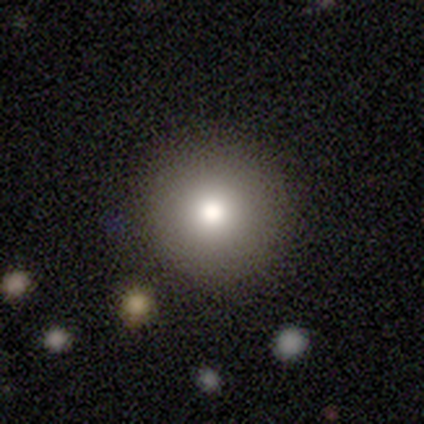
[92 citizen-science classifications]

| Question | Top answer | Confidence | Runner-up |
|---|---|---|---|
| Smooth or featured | smooth | 72% | star or artifact (17%) |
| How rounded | round | 97% | in between (3%) |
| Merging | none | 93% | minor disturbance (5%) |